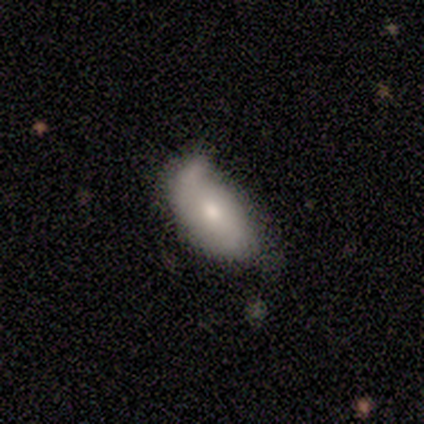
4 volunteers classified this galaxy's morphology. This appears to be a smooth galaxy with no disk features (50%, tied with featured or disk) that is in between round and cigar-shaped (100%). Merging: minor disturbance (75%).